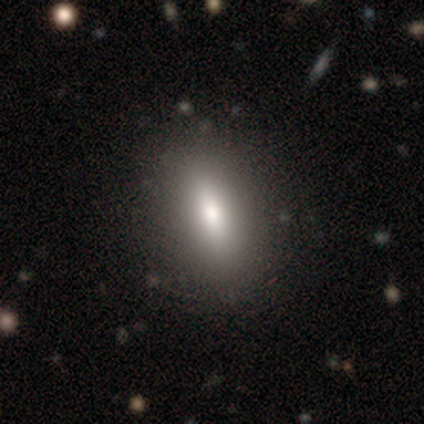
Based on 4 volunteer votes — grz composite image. It shows a smooth galaxy with no disk features (50%) that is in between round and cigar-shaped (50%, tied with cigar-shaped). Merging: none (67%).